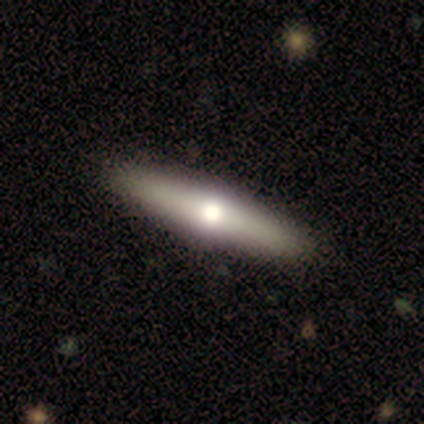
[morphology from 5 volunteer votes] smooth 100%, featured or disk 0%, star or artifact 0%. Down the decision tree: how rounded — cigar-shaped (100%); merging — none (100%).